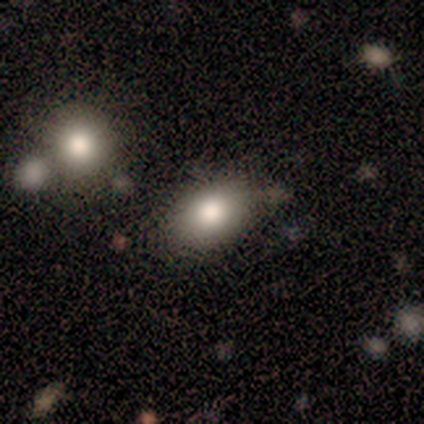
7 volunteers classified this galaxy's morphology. Smooth or featured? smooth (86%)
How rounded? in between (100%)
Merging? none (100%)